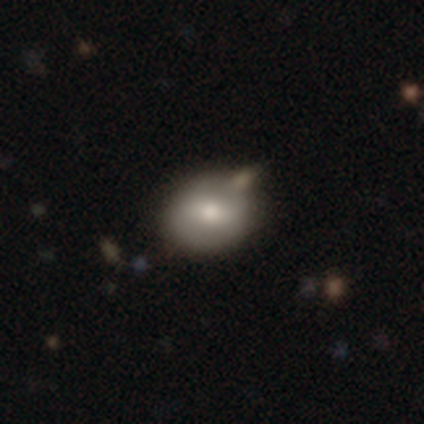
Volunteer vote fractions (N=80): Volunteers were most divided on "merging": none: 36%, merger: 21%, minor disturbance: 8%, major disturbance: 1%. More confident: how rounded — round (71%); smooth or featured — smooth (60%).